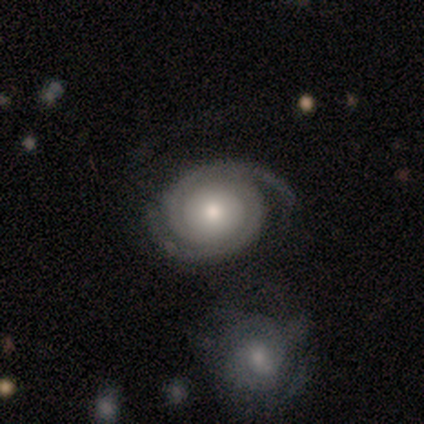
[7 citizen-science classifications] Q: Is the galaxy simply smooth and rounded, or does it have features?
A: featured or disk — 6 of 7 (86%).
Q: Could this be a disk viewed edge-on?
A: no — 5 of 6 (83%).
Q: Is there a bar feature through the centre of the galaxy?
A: no — 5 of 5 (100%).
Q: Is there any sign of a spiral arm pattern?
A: yes — 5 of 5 (100%).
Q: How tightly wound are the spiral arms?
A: tight — 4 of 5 (80%).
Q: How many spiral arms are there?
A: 2 — 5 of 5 (100%).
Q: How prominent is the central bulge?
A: moderate — 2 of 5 (40%, tied with small).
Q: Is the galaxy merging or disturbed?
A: none — 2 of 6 (33%, tied with minor disturbance and merger).